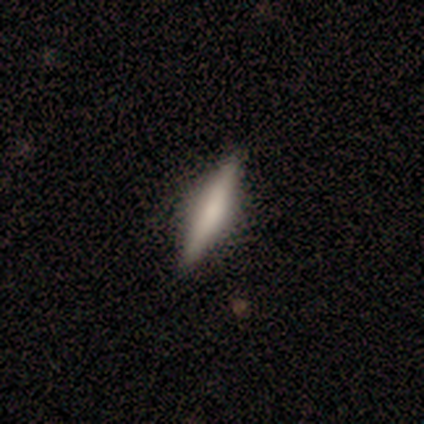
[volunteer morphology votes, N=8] Volunteers were most divided on "smooth or featured": smooth: 62%, featured or disk: 38%, star or artifact: 0%. More confident: merging — none (100%); how rounded — cigar-shaped (80%).